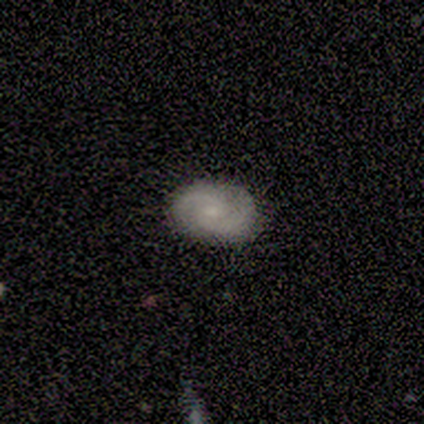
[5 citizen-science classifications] Smooth or featured? smooth (40%, tied with featured or disk)
How rounded? in between (100%)
Merging? none (100%)